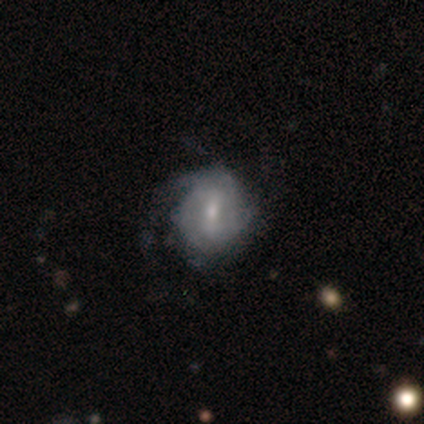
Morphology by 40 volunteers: Smooth or featured? 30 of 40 (75%) said featured or disk. Edge-on disk? 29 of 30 (97%) said no. Bar? 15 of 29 (52%) said weak. Spiral arms? 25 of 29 (86%) said yes. Spiral winding? 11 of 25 (44%, tied with medium) said tight. Spiral arm count? 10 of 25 (40%) said 2. Bulge size? 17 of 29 (59%) said small. Merging? 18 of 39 (46%) said none.